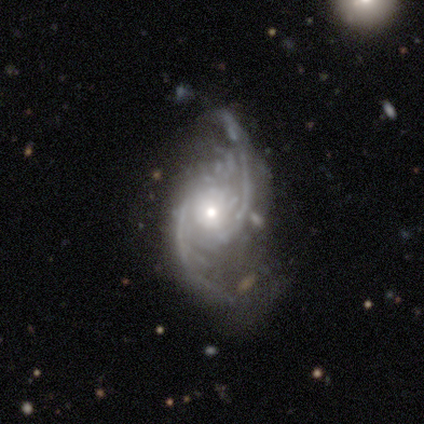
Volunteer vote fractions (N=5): smooth_or_featured: featured or disk (p=0.80) [alt: star or artifact p=0.20]
disk_edge_on: no (p=1.00)
bar: no (p=0.75) [alt: weak p=0.25]
has_spiral_arms: yes (p=0.75) [alt: no p=0.25]
spiral_winding: loose (p=0.67) [alt: medium p=0.33]
spiral_arm_count: 2 (p=1.00)
bulge_size: moderate (p=0.75) [alt: small p=0.25]
merging: minor disturbance (p=0.50) [alt: none p=0.25]